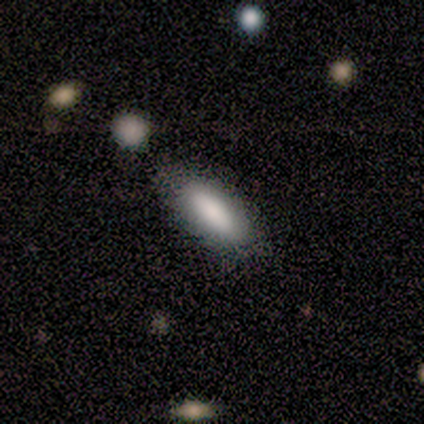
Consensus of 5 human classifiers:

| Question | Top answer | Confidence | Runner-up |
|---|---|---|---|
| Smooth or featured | smooth | 100% | — |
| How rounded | in between | 80% | cigar-shaped (20%) |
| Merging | none | 100% | — |